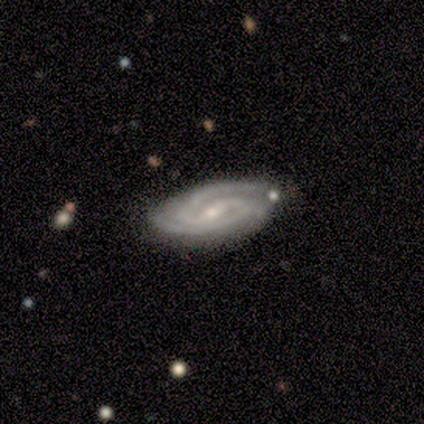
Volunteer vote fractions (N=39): Smooth or featured?
  - featured or disk: 95% *
  - star or artifact: 5%
  - smooth: 0%
Edge-on disk?
  - no: 100% *
  - yes: 0%
Bar?
  - weak: 46% *
  - strong: 27%
  - no: 27%
Spiral arms?
  - yes: 100% *
  - no: 0%
Spiral winding?
  - tight: 70% *
  - medium: 27%
  - loose: 3%
Spiral arm count?
  - 2: 76% *
  - 3: 14%
  - 1: 5%
  - 4: 5%
  - more than 4: 0%
  - can't tell: 0%
Bulge size?
  - small: 65% *
  - moderate: 30%
  - dominant: 3%
  - none: 3%
  - large: 0%
Merging?
  - none: 78% *
  - minor disturbance: 19%
  - major disturbance: 3%
  - merger: 0%